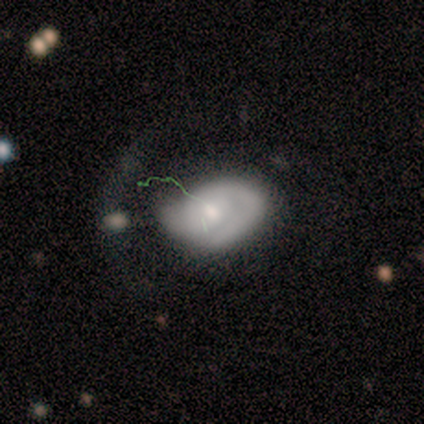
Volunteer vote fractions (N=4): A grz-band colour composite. It shows a smooth galaxy with no disk features (50%, tied with featured or disk) that is in between round and cigar-shaped (100%). Merging: minor disturbance (100%).